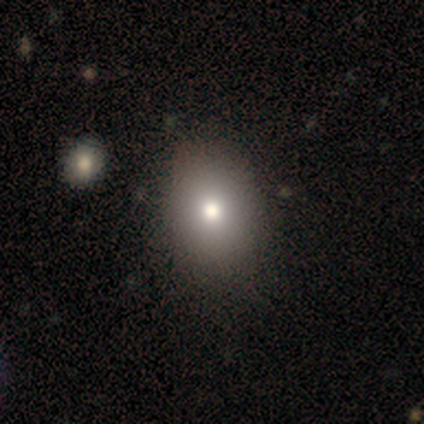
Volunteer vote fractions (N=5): Smooth or featured? smooth (100%)
How rounded? in between (80%)
Merging? none (40%, tied with minor disturbance)